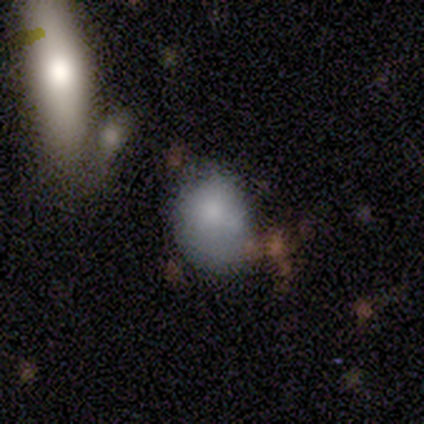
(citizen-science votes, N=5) This appears to be a smooth galaxy with no disk features (80%) that is in between round and cigar-shaped (75%). Merging: minor disturbance (60%).